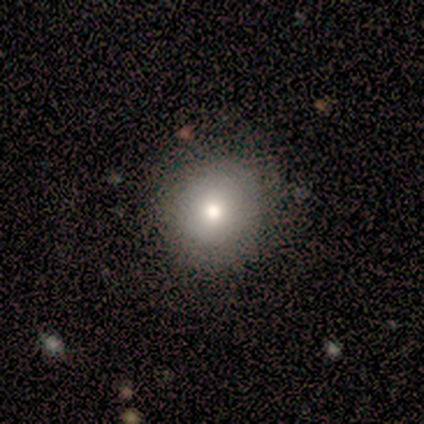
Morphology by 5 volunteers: A smooth galaxy with no disk features (60%) that is round (67%). Merging: none (75%).